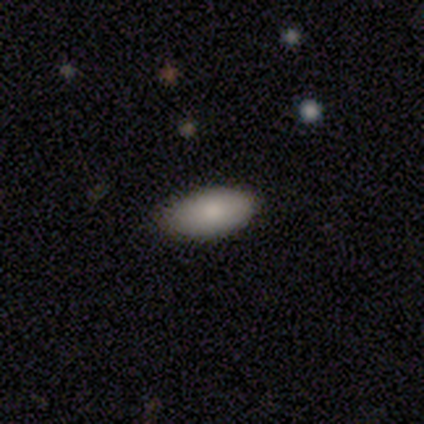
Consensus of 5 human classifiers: smooth-or-featured: smooth: 80% | featured or disk: 20% | star or artifact: 0%
  how-rounded: in between: 100% | round: 0% | cigar-shaped: 0%
  merging: none: 80% | major disturbance: 20% | minor disturbance: 0% | merger: 0%